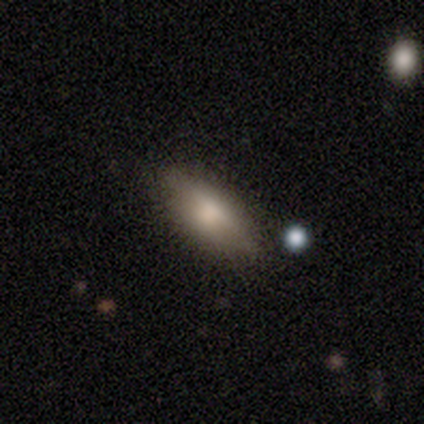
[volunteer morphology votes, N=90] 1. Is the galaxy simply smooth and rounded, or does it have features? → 70% smooth, 18% featured or disk, 12% star or artifact.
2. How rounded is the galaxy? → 84% in between, 14% cigar-shaped, 2% round.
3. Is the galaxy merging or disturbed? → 78% none, 16% minor disturbance, 5% major disturbance, 0% merger.